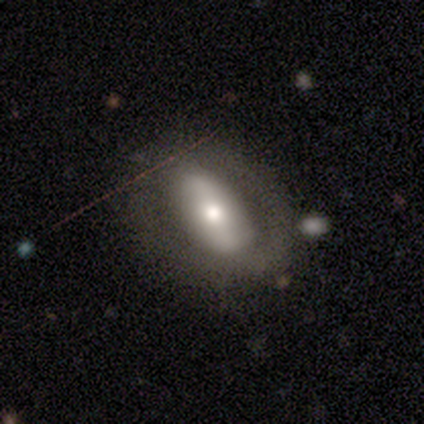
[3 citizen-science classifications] featured or disk 67%, smooth 33%, star or artifact 0%. Down the decision tree: edge-on disk — no (100%); bar — weak (100%); spiral arms — yes (50%, tied with no); spiral arm count — 2 (100%); spiral winding — loose (100%); bulge size — small (100%); merging — minor disturbance (67%).